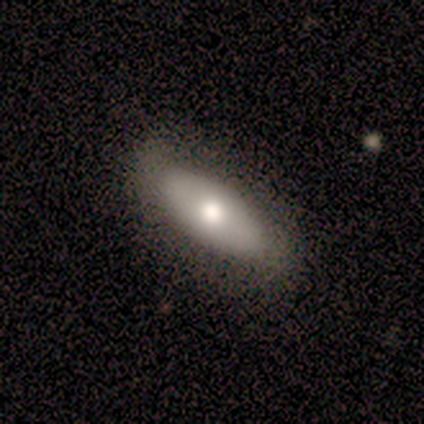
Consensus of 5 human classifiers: Smooth or featured?
  - smooth: 100% *
  - featured or disk: 0%
  - star or artifact: 0%
How rounded?
  - in between: 80% *
  - cigar-shaped: 20%
  - round: 0%
Merging?
  - none: 80% *
  - minor disturbance: 20%
  - major disturbance: 0%
  - merger: 0%